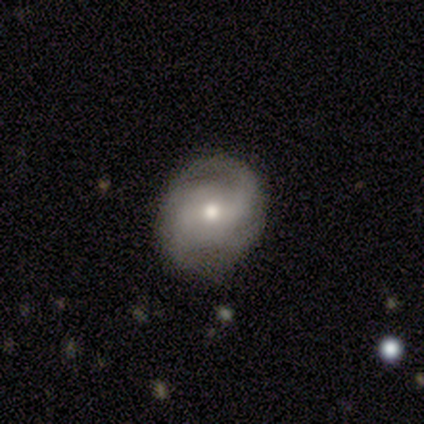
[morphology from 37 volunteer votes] A featured or disk galaxy (86%) with no bar (52%), medium (43%) spiral arms (90%) and a moderate central bulge (61%).

Vote fractions:
- Smooth or featured? featured or disk: 86% / smooth: 8% / star or artifact: 5%
- Edge-on disk? no: 97% / yes: 3%
- Bar? no: 52% / weak: 39% / strong: 10%
- Spiral arms? yes: 90% / no: 10%
- Spiral winding? medium: 43% / tight: 32% / loose: 25%
- Spiral arm count? can't tell: 36% / 2: 29% / 4: 18% / 3: 14% / 1: 4% / more than 4: 0%
- Bulge size? moderate: 61% / small: 26% / dominant: 6% / large: 6% / none: 0%
- Merging? none: 80% / minor disturbance: 17% / major disturbance: 3% / merger: 0%